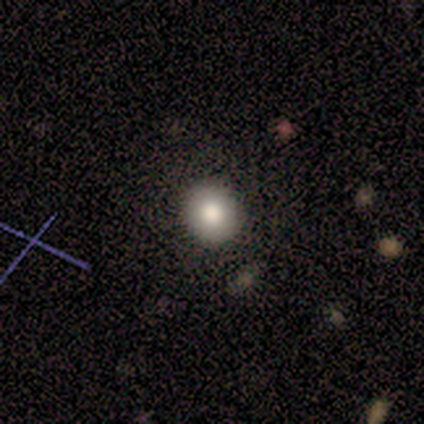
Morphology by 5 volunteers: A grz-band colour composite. It shows a smooth galaxy with no disk features (80%) that is round (100%). Merging: none (100%).